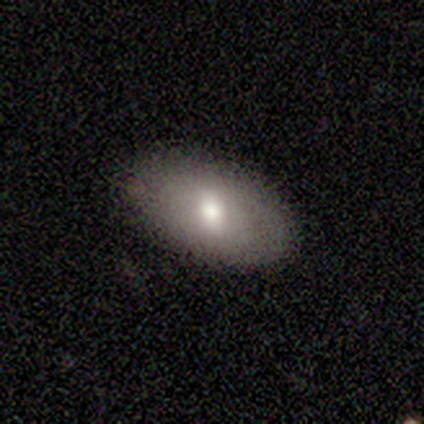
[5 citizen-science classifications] Volunteers were most divided on "how rounded": in between: 75%, round: 25%, cigar-shaped: 0%. More confident: smooth or featured — smooth (80%); merging — none (80%).